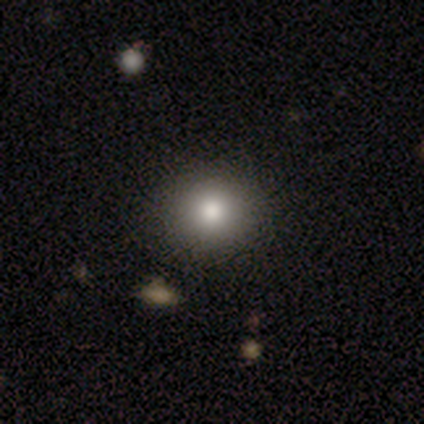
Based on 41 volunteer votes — A smooth galaxy with no disk features (83%) that is round (79%). Merging: none (84%).